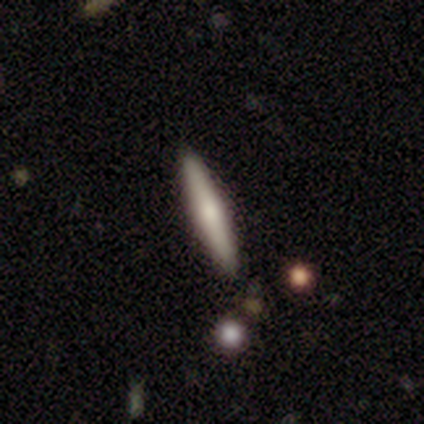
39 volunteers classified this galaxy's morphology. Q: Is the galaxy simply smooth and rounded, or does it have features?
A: smooth — 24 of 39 (62%).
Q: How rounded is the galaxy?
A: cigar-shaped — 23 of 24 (96%).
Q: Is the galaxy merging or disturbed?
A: none — 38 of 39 (97%).